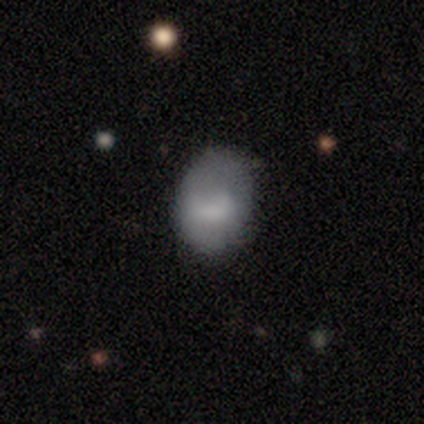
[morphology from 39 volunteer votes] smooth-or-featured: smooth: 82% | star or artifact: 10% | featured or disk: 8%
  how-rounded: in between: 66% | round: 34% | cigar-shaped: 0%
  merging: none: 74% | minor disturbance: 20% | major disturbance: 6% | merger: 0%